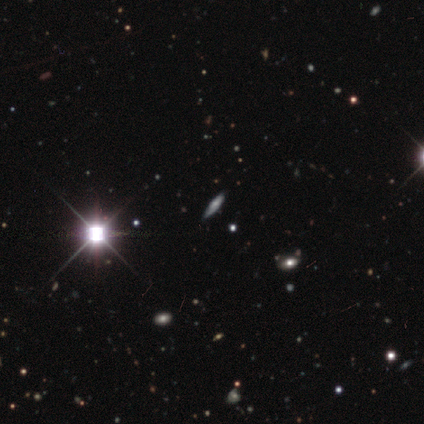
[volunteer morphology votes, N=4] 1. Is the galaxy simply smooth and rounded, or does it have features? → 50% star or artifact, 25% smooth, 25% featured or disk.